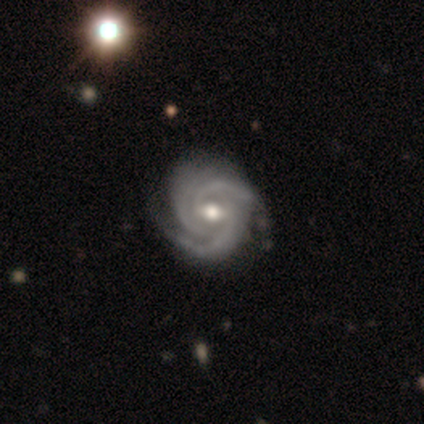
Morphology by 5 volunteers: type=featured or disk (100%); edge-on=no (100%); bar=weak (40%, tied with no); spiral arms=yes (100%); winding=tight (100%); arm count=3 (100%); bulge=large (60%); merging=minor disturbance (60%).